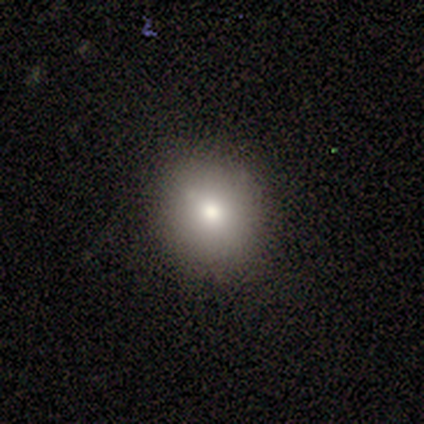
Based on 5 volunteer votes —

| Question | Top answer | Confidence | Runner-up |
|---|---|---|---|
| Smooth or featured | smooth | 100% | — |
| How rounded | round | 60% | in between (40%) |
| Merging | none | 80% | minor disturbance (20%) |